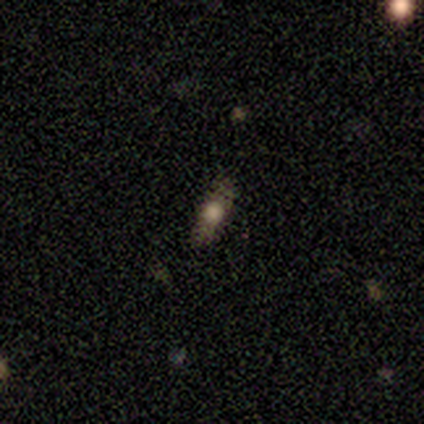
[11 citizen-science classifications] smooth_or_featured: smooth (p=0.45) [alt: featured or disk p=0.36]
how_rounded: in between (p=0.60) [alt: cigar-shaped p=0.40]
merging: none (p=1.00)